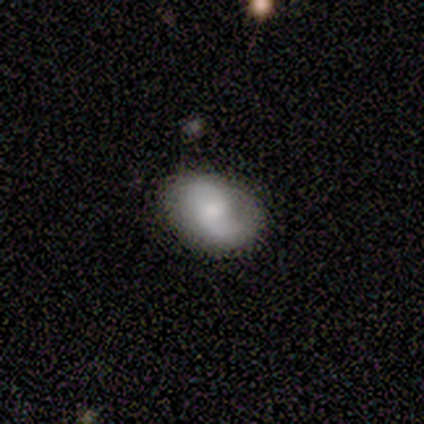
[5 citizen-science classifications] This is clearly a featured or disk galaxy (80%). It is clearly not viewed edge-on (100%). Bar: likely weak (75%). Spiral arm pattern: possibly yes (50%, tied with no). Spiral arm count: possibly 1 (50%, tied with 2). Spiral winding: possibly tight (50%, tied with loose). Central bulge: likely moderate (75%). Merging: clearly none (100%).